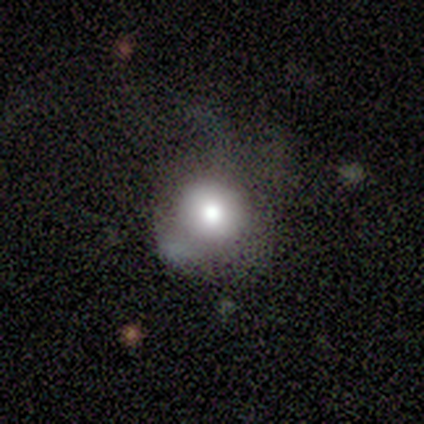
Morphology: type=smooth (71%); roundness=round (80%); merging=major disturbance (57%).